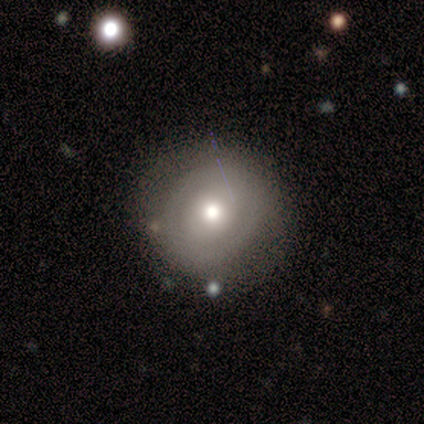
Smooth or featured? 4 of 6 (67%) said featured or disk. Edge-on disk? 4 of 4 (100%) said no. Bar? 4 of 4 (100%) said no. Spiral arms? 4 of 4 (100%) said no. Bulge size? 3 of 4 (75%) said moderate. Merging? 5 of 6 (83%) said none.